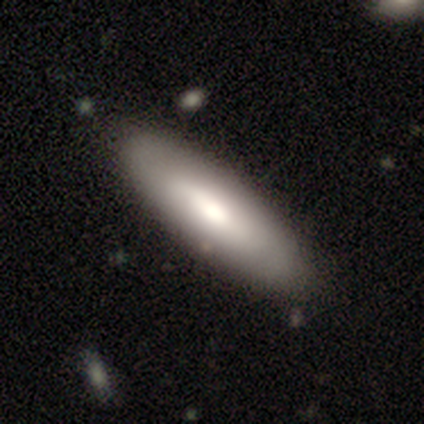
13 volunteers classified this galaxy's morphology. smooth_or_featured: smooth (p=0.85) [alt: featured or disk p=0.08]
how_rounded: cigar-shaped (p=0.55) [alt: in between p=0.45]
merging: none (p=1.00)